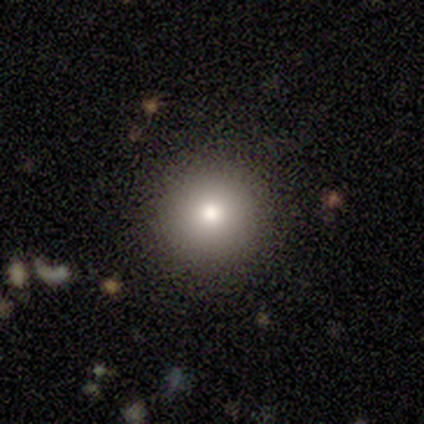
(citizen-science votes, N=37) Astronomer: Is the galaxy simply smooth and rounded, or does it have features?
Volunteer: smooth — 86%.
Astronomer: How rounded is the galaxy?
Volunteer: round — 94%.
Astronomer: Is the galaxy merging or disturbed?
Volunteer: none — 92%.